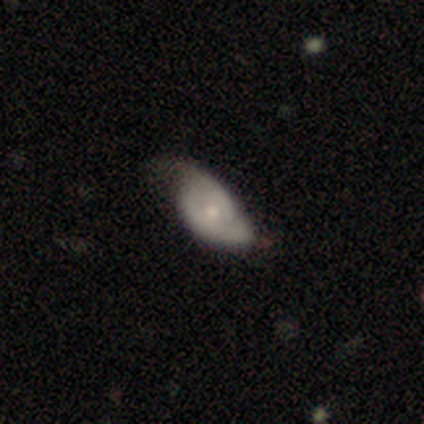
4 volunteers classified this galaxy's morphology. This appears to be a featured or disk galaxy (75%) with no bar (100%), 2 (100%) tight (50%, tied with medium) spiral arms (100%) and a large central bulge (50%, tied with moderate). Merging: none (25%, tied with minor disturbance, major disturbance and merger).